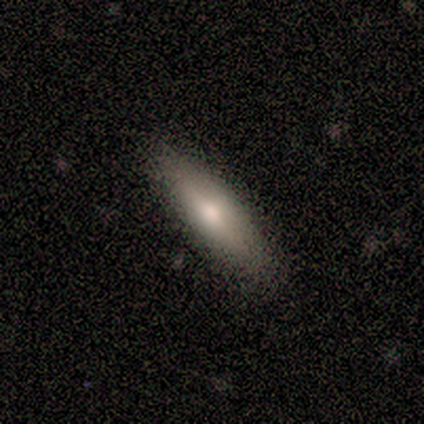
Smooth or featured? 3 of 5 (60%) said smooth. How rounded? 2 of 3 (67%) said cigar-shaped. Merging? 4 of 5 (80%) said none.